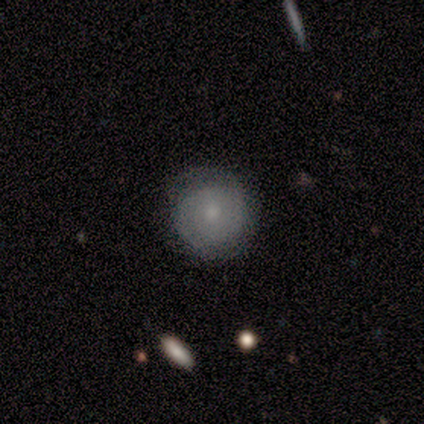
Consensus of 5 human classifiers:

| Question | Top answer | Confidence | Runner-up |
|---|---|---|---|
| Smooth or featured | smooth | 60% | featured or disk (20%) |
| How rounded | round | 100% | — |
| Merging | none | 100% | — |